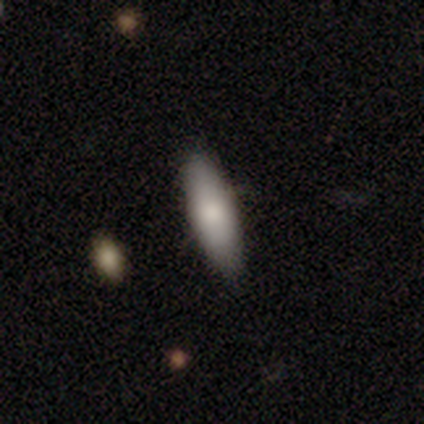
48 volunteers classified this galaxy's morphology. Smooth or featured?
  - smooth: 83% *
  - featured or disk: 12%
  - star or artifact: 4%
How rounded?
  - in between: 52% *
  - cigar-shaped: 45%
  - round: 2%
Merging?
  - none: 83% *
  - minor disturbance: 13%
  - major disturbance: 4%
  - merger: 0%